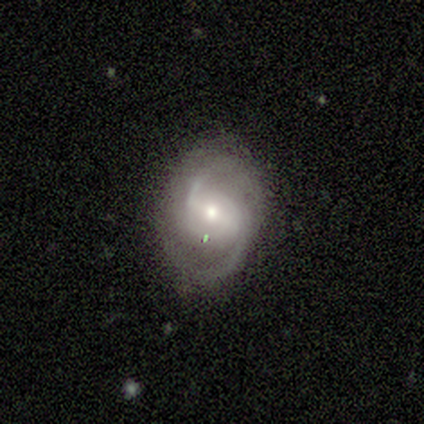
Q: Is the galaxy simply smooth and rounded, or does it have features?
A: featured or disk — 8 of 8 (100%).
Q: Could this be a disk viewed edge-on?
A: no — 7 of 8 (88%).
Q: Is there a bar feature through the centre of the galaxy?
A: strong — 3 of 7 (43%, tied with weak).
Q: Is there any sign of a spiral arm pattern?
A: yes — 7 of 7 (100%).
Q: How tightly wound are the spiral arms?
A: loose — 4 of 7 (57%).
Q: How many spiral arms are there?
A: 2 — 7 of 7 (100%).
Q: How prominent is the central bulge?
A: moderate — 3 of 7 (43%, tied with small).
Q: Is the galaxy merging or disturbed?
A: none — 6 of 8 (75%).